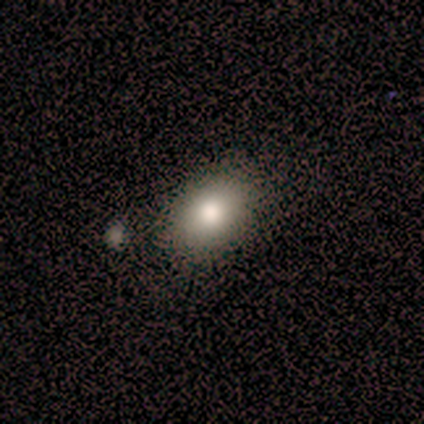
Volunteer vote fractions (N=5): smooth-or-featured: smooth: 80% | featured or disk: 20% | star or artifact: 0%
  how-rounded: in between: 100% | round: 0% | cigar-shaped: 0%
  merging: none: 60% | minor disturbance: 40% | major disturbance: 0% | merger: 0%